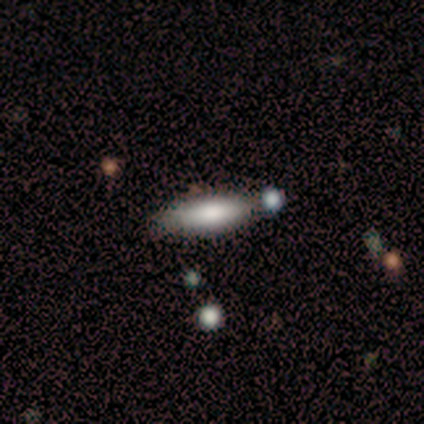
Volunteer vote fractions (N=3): Smooth or featured? 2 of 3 (67%) said smooth. How rounded? 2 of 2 (100%) said cigar-shaped. Merging? 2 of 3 (67%) said none.